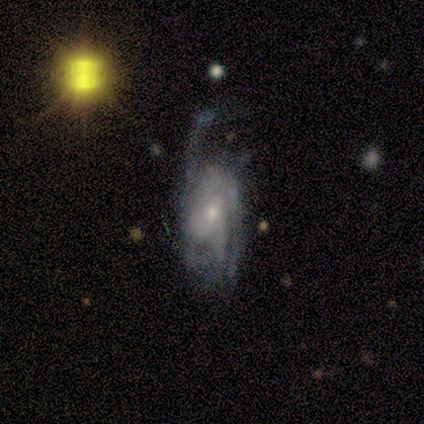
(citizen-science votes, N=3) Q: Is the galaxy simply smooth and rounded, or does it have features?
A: featured or disk — 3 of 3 (100%).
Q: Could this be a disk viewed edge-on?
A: no — 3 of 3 (100%).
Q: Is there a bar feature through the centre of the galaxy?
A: no — 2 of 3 (67%).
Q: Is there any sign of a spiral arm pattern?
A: yes — 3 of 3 (100%).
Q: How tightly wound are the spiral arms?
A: tight — 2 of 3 (67%).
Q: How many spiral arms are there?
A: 1 — 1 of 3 (33%, tied with 3 and 4).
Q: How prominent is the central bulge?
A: moderate — 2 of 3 (67%).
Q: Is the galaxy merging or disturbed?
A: none — 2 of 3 (67%).